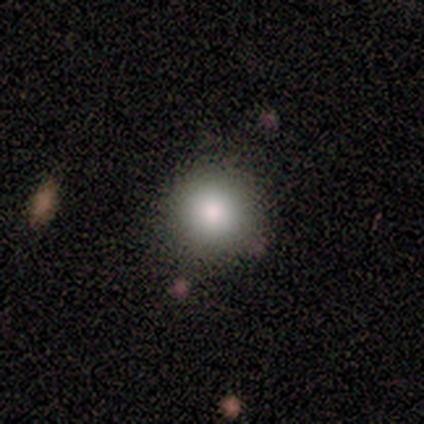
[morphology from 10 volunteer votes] A smooth galaxy with no disk features (70%) that is round (100%).

Vote fractions:
- Smooth or featured? smooth: 70% / featured or disk: 20% / star or artifact: 10%
- How rounded? round: 100% / in between: 0% / cigar-shaped: 0%
- Merging? none: 89% / minor disturbance: 11% / major disturbance: 0% / merger: 0%